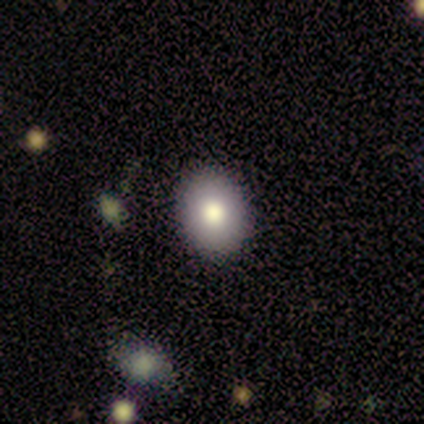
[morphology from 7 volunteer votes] Volunteers were most divided on "smooth or featured": featured or disk: 57%, smooth: 43%, star or artifact: 0%. More confident: edge-on disk — no (100%); bar — no (100%); spiral arms — no (100%); merging — none (100%); bulge size — moderate (75%).